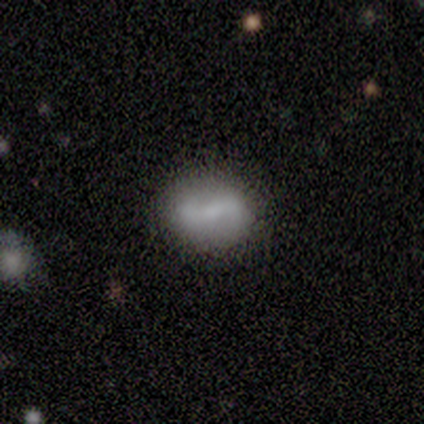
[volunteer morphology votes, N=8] Smooth or featured? featured or disk (50%)
Edge-on disk? no (100%)
Bar? weak (75%)
Spiral arms? yes (100%)
Spiral winding? tight (50%, tied with loose)
Spiral arm count? 2 (75%)
Bulge size? moderate (50%, tied with none)
Merging? none (86%)